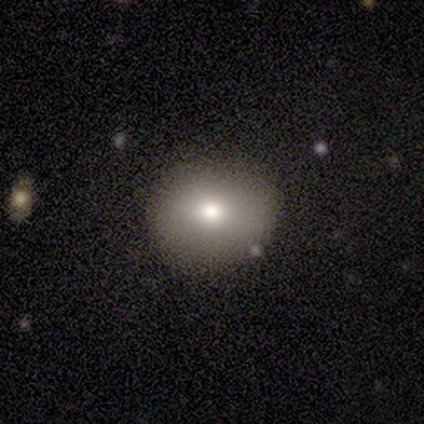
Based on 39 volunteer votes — Overall: smooth (87%). How rounded: round (76%). Merging: none (78%).